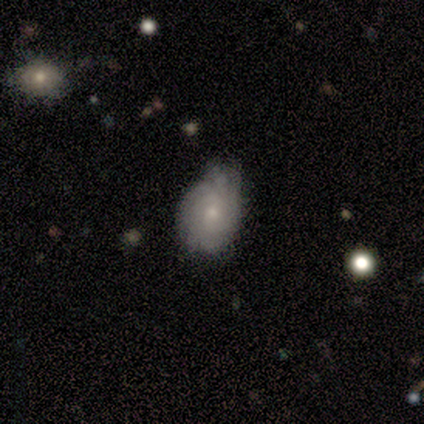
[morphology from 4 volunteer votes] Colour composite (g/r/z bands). It shows a featured or disk galaxy (75%) with no bar (67%), 2 (67%) medium (67%) spiral arms (100%) and a small central bulge (67%). Merging: none (75%).